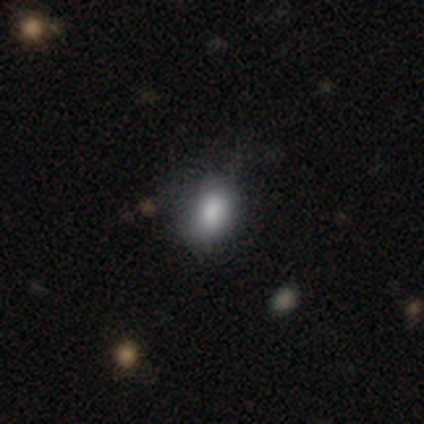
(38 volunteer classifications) Smooth or featured? 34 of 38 (89%) said smooth. How rounded? 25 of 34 (74%) said in between. Merging? 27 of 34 (79%) said none.